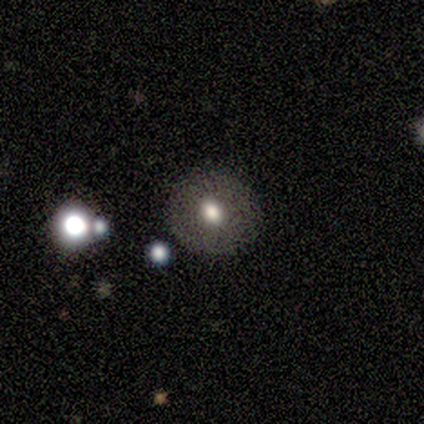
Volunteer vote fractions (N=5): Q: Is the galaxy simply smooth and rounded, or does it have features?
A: featured or disk — 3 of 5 (60%).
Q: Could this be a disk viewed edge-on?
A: no — 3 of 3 (100%).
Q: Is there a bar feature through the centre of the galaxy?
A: no — 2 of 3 (67%).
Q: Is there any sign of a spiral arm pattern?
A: no — 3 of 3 (100%).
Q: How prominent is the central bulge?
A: moderate — 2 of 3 (67%).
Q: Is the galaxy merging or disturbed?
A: none — 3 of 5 (60%).